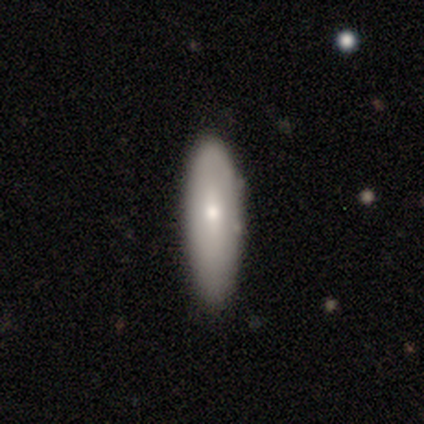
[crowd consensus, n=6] Q: Smooth or featured?
A: smooth (67%); runner-up: featured or disk (33%)
Q: How rounded?
A: cigar-shaped (75%); runner-up: round (25%)
Q: Merging?
A: none (83%); runner-up: minor disturbance (17%)